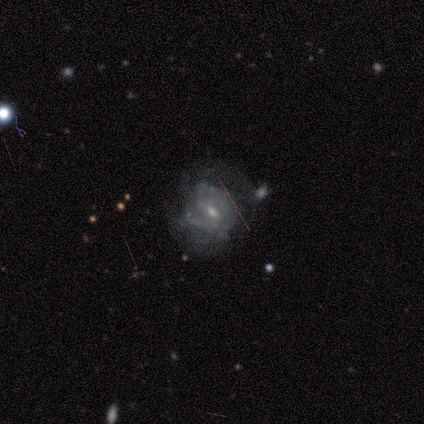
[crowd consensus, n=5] Overall: featured or disk (100%). Edge-on disk: no (100%). Bar: weak (60%; no 40%). Spiral arms: yes (80%). Spiral arm count: 2 (50%, tied with can't tell). Spiral winding: tight (50%, tied with medium). Bulge size: small (80%). Merging: none (60%; minor disturbance 40%).